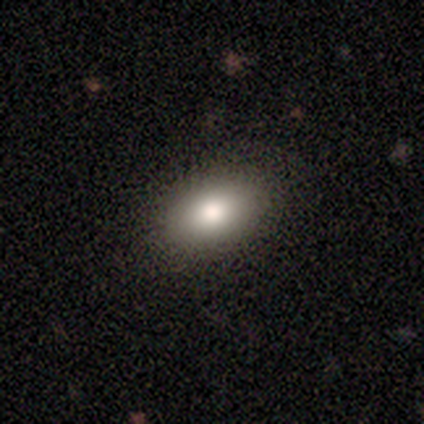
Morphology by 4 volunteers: smooth-or-featured: smooth: 75% | star or artifact: 25% | featured or disk: 0%
  how-rounded: in between: 100% | round: 0% | cigar-shaped: 0%
  merging: none: 100% | minor disturbance: 0% | major disturbance: 0% | merger: 0%